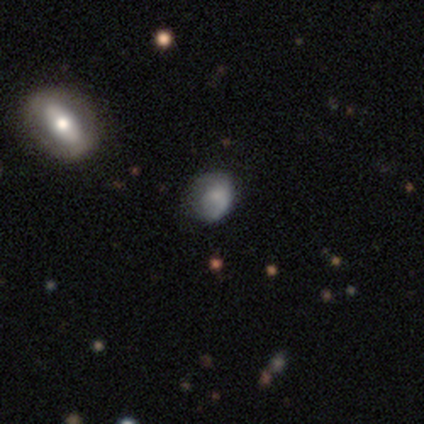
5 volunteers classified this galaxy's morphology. smooth-or-featured: smooth: 40% (tied) | star or artifact: 40% (tied) | featured or disk: 20%
  how-rounded: round: 50% (tied) | in between: 50% (tied) | cigar-shaped: 0%
  merging: none: 33% (tied) | minor disturbance: 33% (tied) | major disturbance: 33% (tied) | merger: 0%